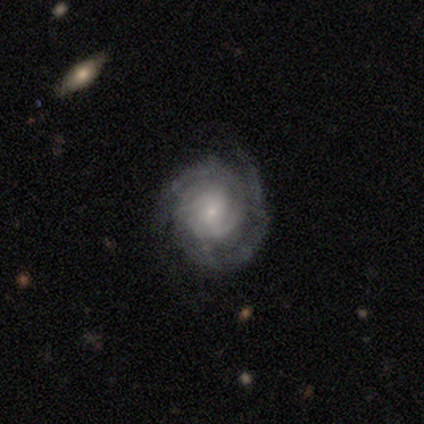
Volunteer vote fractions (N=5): smooth-or-featured: featured or disk: 100% | smooth: 0% | star or artifact: 0%
  disk-edge-on: no: 100% | yes: 0%
    bar: no: 60% | weak: 40% | strong: 0%
    has-spiral-arms: yes: 80% | no: 20%
      spiral-winding: tight: 75% | medium: 25% | loose: 0%
      spiral-arm-count: can't tell: 75% | 2: 25% | 1: 0% | 3: 0% | 4: 0% | more than 4: 0%
    bulge-size: small: 100% | dominant: 0% | large: 0% | moderate: 0% | none: 0%
  merging: none: 60% | minor disturbance: 40% | major disturbance: 0% | merger: 0%